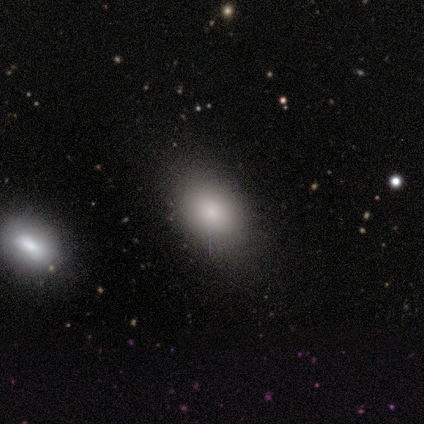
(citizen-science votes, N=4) smooth-or-featured: smooth: 100% | featured or disk: 0% | star or artifact: 0%
  how-rounded: in between: 100% | round: 0% | cigar-shaped: 0%
  merging: minor disturbance: 50% | none: 25% | major disturbance: 25% | merger: 0%